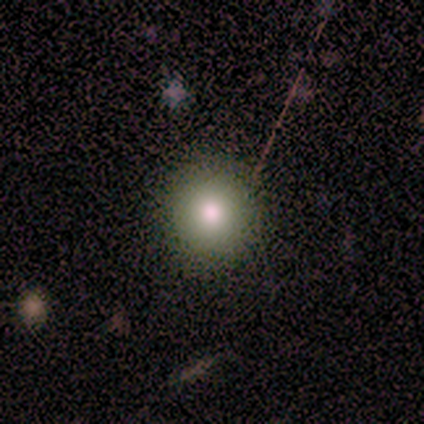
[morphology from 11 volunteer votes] This is likely a smooth galaxy (64%). How rounded: clearly round (100%). Merging: clearly none (90%).